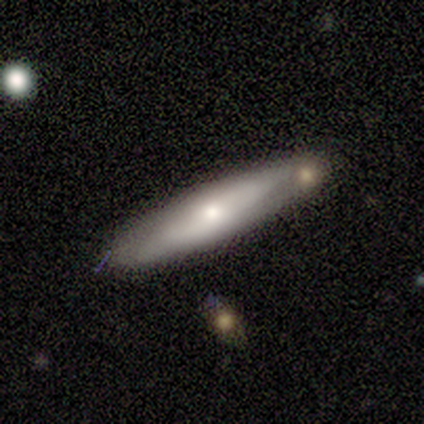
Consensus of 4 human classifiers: Morphology: type=smooth (100%); roundness=cigar-shaped (100%); merging=none (100%).